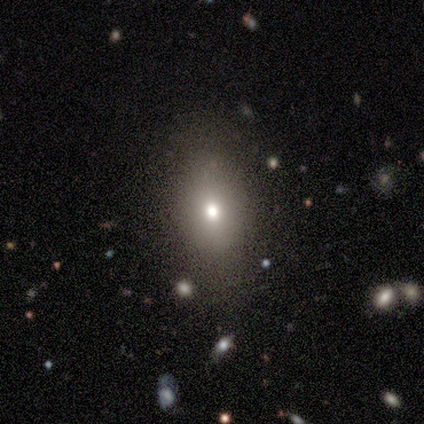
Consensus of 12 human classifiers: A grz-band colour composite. It shows a featured or disk galaxy (58%) with no bar (60%), no spiral arms (100%) and a moderate central bulge (60%). Merging: none (75%).